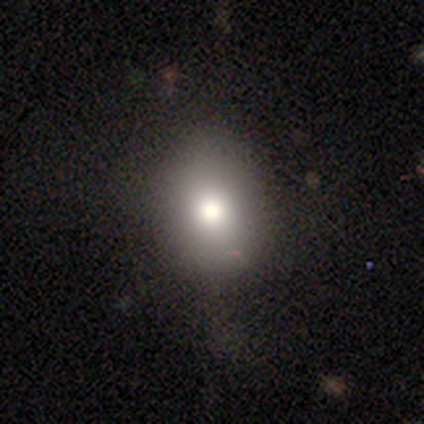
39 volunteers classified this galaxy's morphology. Overall: smooth (72%). How rounded: in between (57%; round 43%). Merging: none (79%).